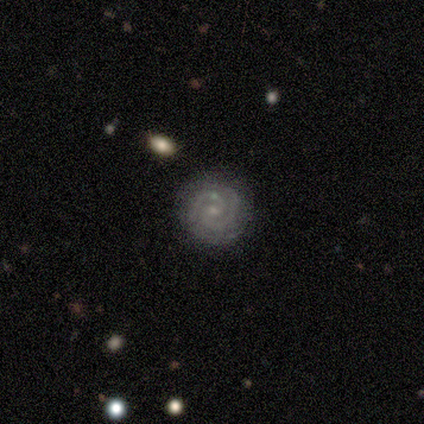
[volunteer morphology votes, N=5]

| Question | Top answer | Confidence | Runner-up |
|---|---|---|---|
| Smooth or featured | featured or disk | 100% | — |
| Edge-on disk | no | 100% | — |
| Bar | weak | 60% | no (40%) |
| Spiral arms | yes | 100% | — |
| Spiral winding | tight | 40% | tied: medium (40%) |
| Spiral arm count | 2 | 100% | — |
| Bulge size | small | 100% | — |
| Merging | none | 80% | minor disturbance (20%) |